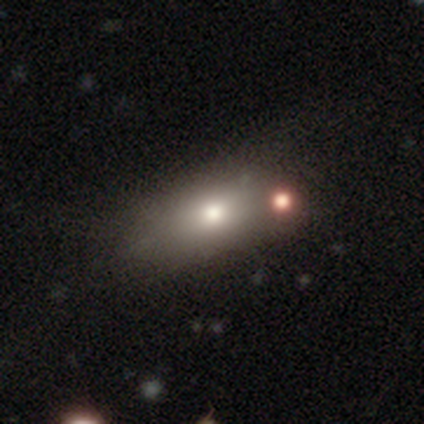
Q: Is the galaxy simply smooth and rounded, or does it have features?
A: smooth — 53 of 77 (69%).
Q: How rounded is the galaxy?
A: in between — 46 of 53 (87%).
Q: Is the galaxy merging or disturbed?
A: none — 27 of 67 (40%).